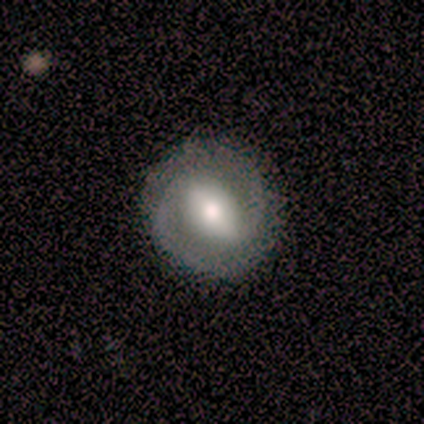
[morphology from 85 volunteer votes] smooth_or_featured: featured or disk (p=0.81) [alt: smooth p=0.18]
disk_edge_on: no (p=0.96) [alt: yes p=0.04]
bar: strong (p=0.67) [alt: weak p=0.29]
has_spiral_arms: yes (p=0.94) [alt: no p=0.06]
spiral_winding: tight (p=0.53) [alt: medium p=0.42]
spiral_arm_count: 2 (p=1.00)
bulge_size: moderate (p=0.55) [alt: large p=0.39]
merging: none (p=0.89) [alt: minor disturbance p=0.08]